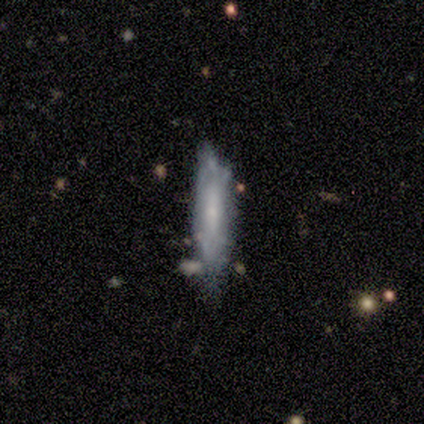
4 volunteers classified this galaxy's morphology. Overall: featured or disk (75%). Edge-on disk: no (100%). Bar: strong (33%, tied with weak and no). Spiral arms: yes (67%; no 33%). Spiral arm count: 2 (100%). Spiral winding: medium (100%). Bulge size: small (67%; moderate 33%). Merging: none (75%).